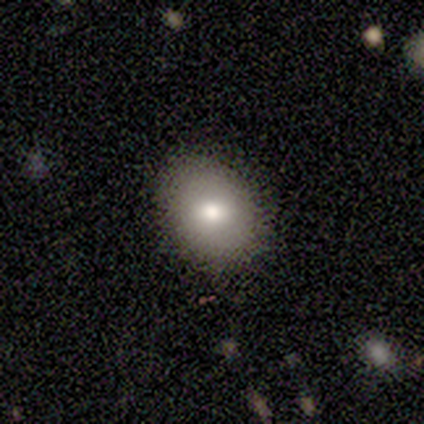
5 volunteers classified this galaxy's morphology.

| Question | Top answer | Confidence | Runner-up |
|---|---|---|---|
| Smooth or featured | smooth | 60% | featured or disk (40%) |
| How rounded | round | 100% | — |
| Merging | none | 80% | minor disturbance (20%) |